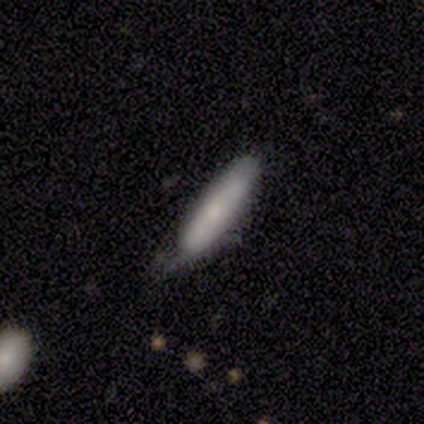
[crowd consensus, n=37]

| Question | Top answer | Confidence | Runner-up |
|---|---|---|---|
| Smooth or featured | smooth | 81% | featured or disk (16%) |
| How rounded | cigar-shaped | 83% | in between (17%) |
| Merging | none | 50% | minor disturbance (44%) |